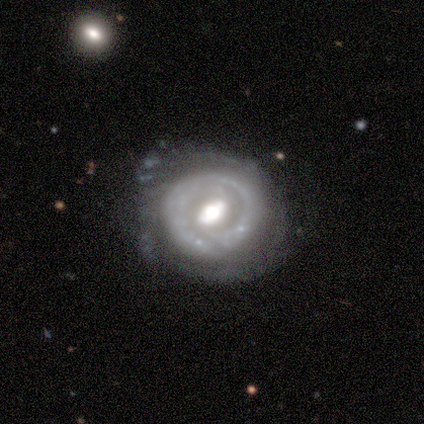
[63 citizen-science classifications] Smooth or featured? 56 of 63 (89%) said featured or disk. Edge-on disk? 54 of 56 (96%) said no. Bar? 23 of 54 (43%) said no. Spiral arms? 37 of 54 (69%) said yes. Spiral winding? 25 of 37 (68%) said tight. Spiral arm count? 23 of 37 (62%) said 2. Bulge size? 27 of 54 (50%) said moderate. Merging? 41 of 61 (67%) said none.